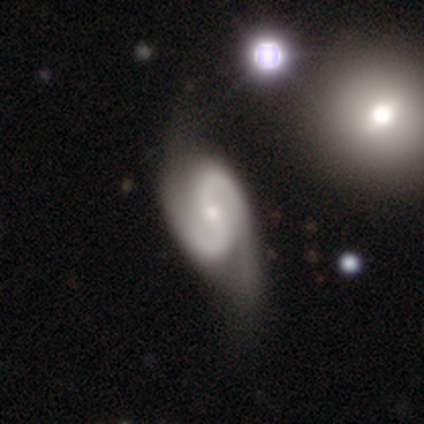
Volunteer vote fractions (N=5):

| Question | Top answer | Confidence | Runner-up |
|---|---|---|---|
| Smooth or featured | featured or disk | 100% | — |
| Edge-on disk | no | 100% | — |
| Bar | no | 60% | strong (20%) |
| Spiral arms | yes | 100% | — |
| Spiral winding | medium | 40% | tied: loose (40%) |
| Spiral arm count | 2 | 100% | — |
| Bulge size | moderate | 60% | small (40%) |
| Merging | none | 40% | tied: minor disturbance (40%) |